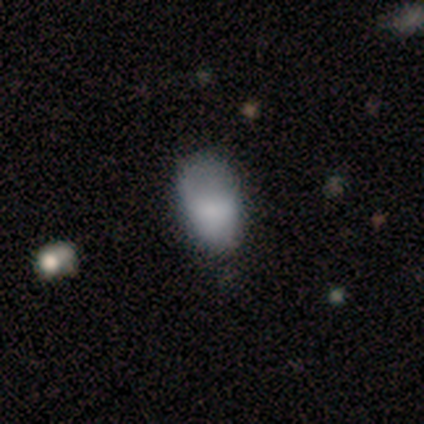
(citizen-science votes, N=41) A smooth galaxy with no disk features (88%) that is in between round and cigar-shaped (97%).

Vote fractions:
- Smooth or featured? smooth: 88% / featured or disk: 7% / star or artifact: 5%
- How rounded? in between: 97% / cigar-shaped: 3% / round: 0%
- Merging? minor disturbance: 31% / none: 26% / major disturbance: 13% / merger: 5%